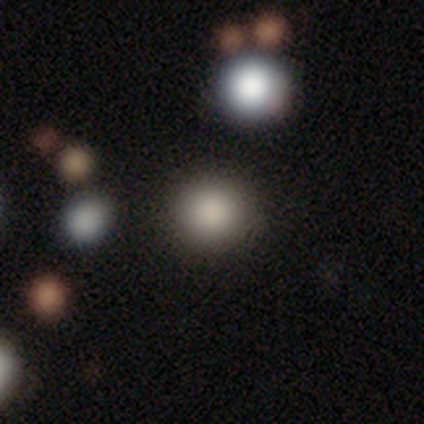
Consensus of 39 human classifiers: Smooth or featured? 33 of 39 (85%) said smooth. How rounded? 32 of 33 (97%) said round. Merging? 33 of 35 (94%) said none.